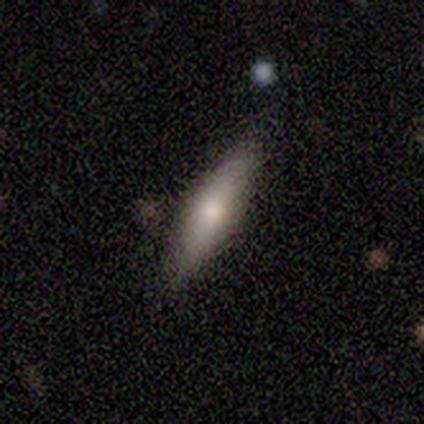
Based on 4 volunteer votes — Q: Smooth or featured?
A: featured or disk (75%); runner-up: smooth (25%)
Q: Edge-on disk?
A: yes (67%); runner-up: no (33%)
Q: Edge-on bulge?
A: rounded (100%)
Q: Merging?
A: none (75%); runner-up: minor disturbance (25%)